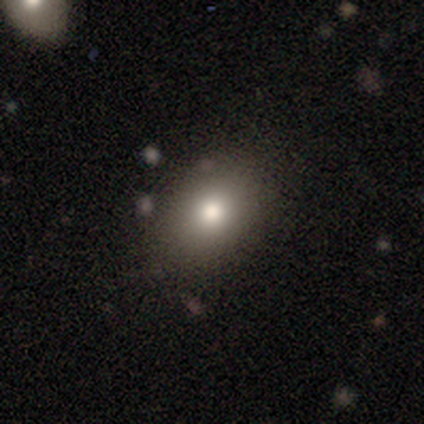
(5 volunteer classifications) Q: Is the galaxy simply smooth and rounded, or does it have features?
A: smooth — 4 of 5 (80%).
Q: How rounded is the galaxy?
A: round — 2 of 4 (50%, tied with in between).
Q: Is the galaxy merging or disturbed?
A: none — 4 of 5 (80%).